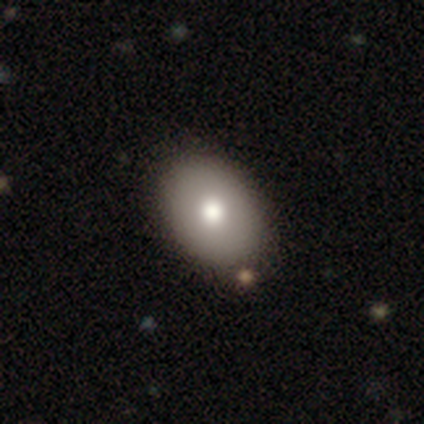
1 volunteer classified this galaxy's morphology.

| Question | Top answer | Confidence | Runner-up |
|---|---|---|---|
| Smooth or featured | star or artifact | 100% | — |